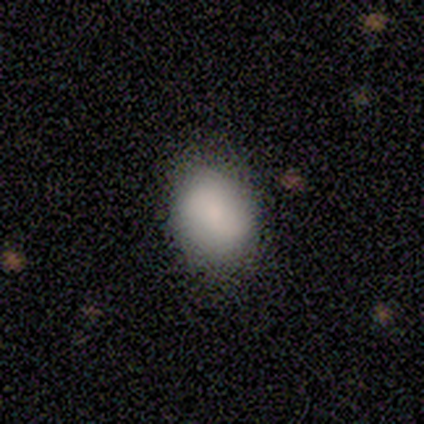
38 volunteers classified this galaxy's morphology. Overall: smooth (74%). How rounded: in between (61%; round 39%). Merging: none (54%).